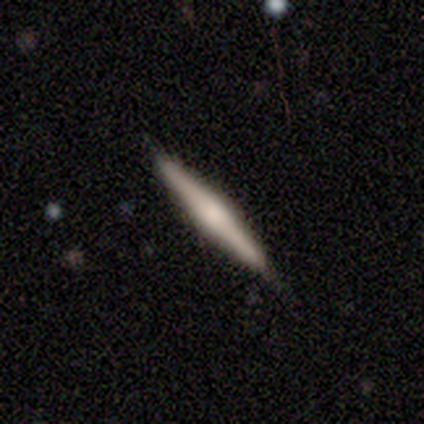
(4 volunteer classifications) A smooth galaxy with no disk features (50%, tied with featured or disk) that is cigar-shaped (100%). Merging: none (75%).